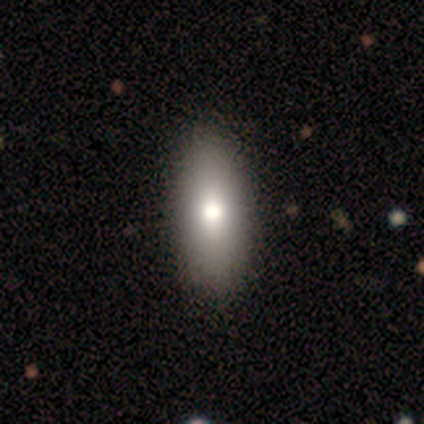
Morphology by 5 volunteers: This is clearly a smooth galaxy (100%). How rounded: clearly in between (100%). Merging: likely none (60%).